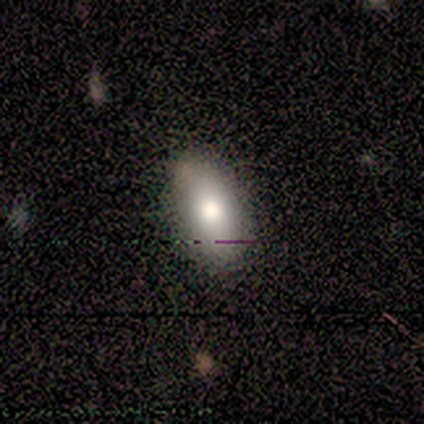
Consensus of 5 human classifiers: This appears to be a smooth galaxy with no disk features (60%) that is in between round and cigar-shaped (100%). Merging: none (80%).